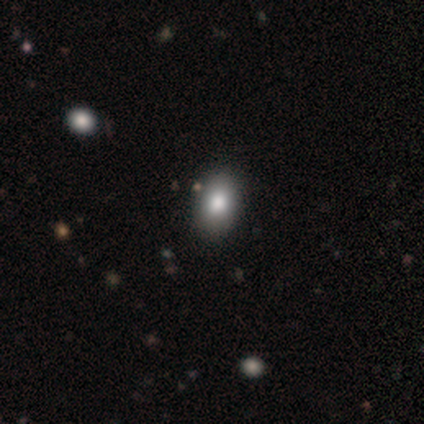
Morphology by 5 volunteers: smooth 80%, star or artifact 20%, featured or disk 0%. Down the decision tree: how rounded — in between (100%); merging — none (100%).